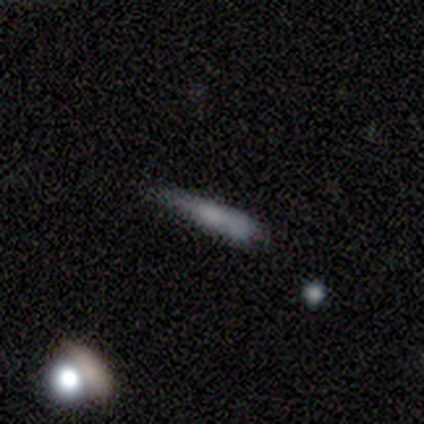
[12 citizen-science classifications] A smooth galaxy with no disk features (75%) that is cigar-shaped (89%).

Vote fractions:
- Smooth or featured? smooth: 75% / featured or disk: 25% / star or artifact: 0%
- How rounded? cigar-shaped: 89% / in between: 11% / round: 0%
- Merging? none: 33% (tied) / minor disturbance: 33% (tied) / major disturbance: 17% / merger: 17%